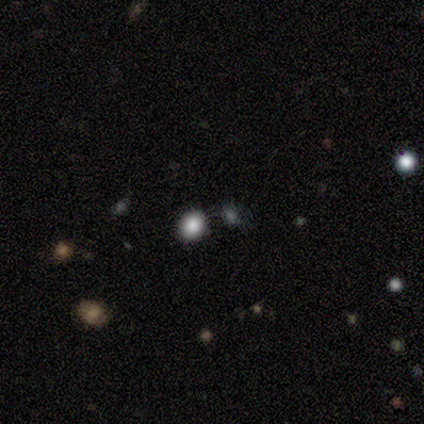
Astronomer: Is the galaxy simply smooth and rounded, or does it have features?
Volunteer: smooth — 60% (runner-up: star or artifact, 40%).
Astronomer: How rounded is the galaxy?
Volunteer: round — 67%.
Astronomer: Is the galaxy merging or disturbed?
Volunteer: none — 100%.